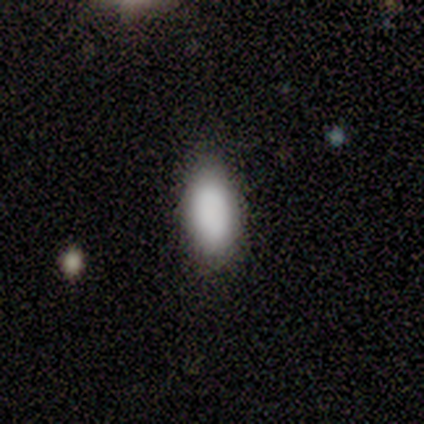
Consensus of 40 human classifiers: A smooth galaxy with no disk features (98%) that is in between round and cigar-shaped (97%). Merging: none (95%).